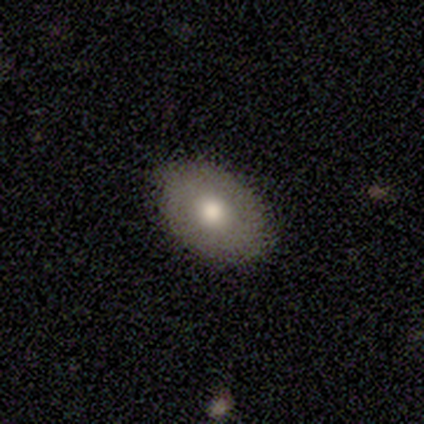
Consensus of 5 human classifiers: Q: Smooth or featured?
A: smooth (80%); runner-up: featured or disk (20%)
Q: How rounded?
A: in between (100%)
Q: Merging?
A: none (100%)